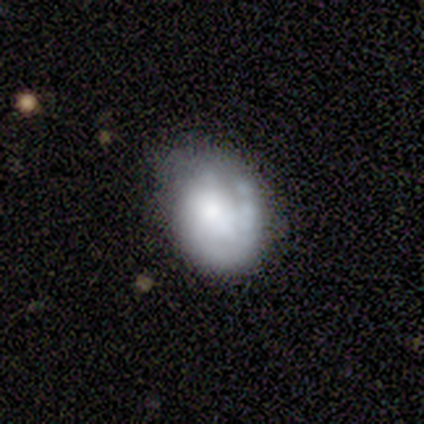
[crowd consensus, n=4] Smooth or featured? 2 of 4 (50%) said featured or disk. Edge-on disk? 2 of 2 (100%) said no. Bar? 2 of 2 (100%) said weak. Spiral arms? 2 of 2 (100%) said yes. Spiral winding? 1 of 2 (50%, tied with loose) said tight. Spiral arm count? 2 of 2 (100%) said 1. Bulge size? 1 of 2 (50%, tied with none) said large. Merging? 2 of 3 (67%) said none.